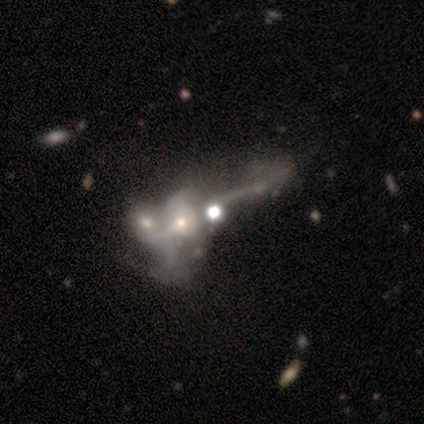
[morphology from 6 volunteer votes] A featured or disk galaxy (83%) with no bar (60%), no spiral arms (60%) and a moderate central bulge (60%). Merging: merger (60%).